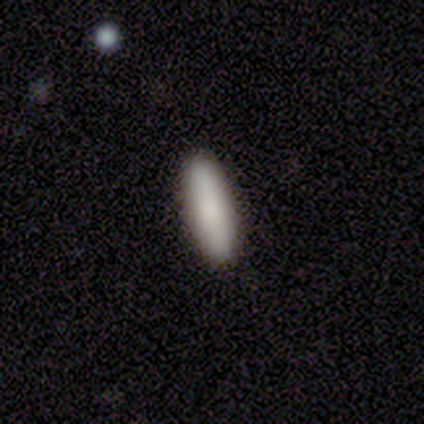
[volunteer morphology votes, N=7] Volunteers were most divided on "how rounded": cigar-shaped: 71%, in between: 29%, round: 0%. More confident: smooth or featured — smooth (100%); merging — none (71%).